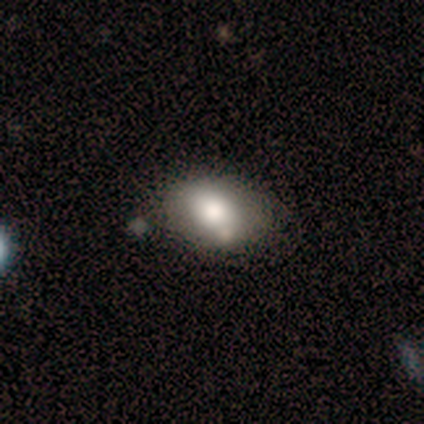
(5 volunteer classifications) Smooth or featured? smooth (80%)
How rounded? in between (75%)
Merging? none (80%)